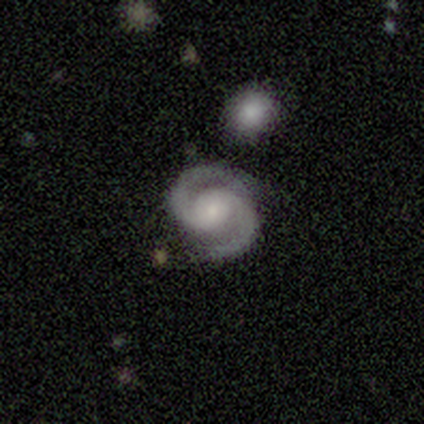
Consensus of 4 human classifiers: A featured or disk galaxy (100%) with no bar (75%), 2 (100%) medium (100%) spiral arms (100%) and a small central bulge (75%). Merging: none (75%).